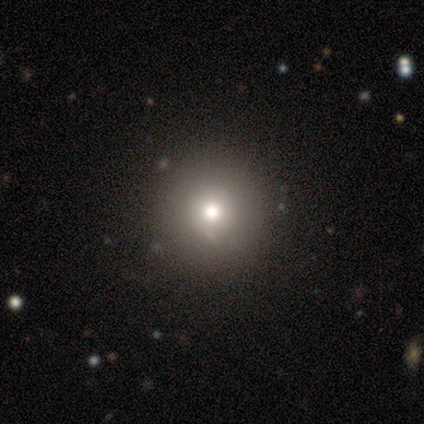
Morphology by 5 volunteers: This is clearly a smooth galaxy (80%). How rounded: clearly round (100%). Merging: likely none (75%).